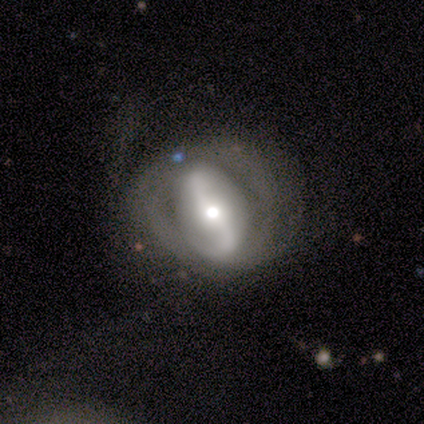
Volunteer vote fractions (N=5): A smooth galaxy with no disk features (60%) that is in between round and cigar-shaped (100%).

Vote fractions:
- Smooth or featured? smooth: 60% / featured or disk: 40% / star or artifact: 0%
- How rounded? in between: 100% / round: 0% / cigar-shaped: 0%
- Merging? none: 60% / major disturbance: 40% / minor disturbance: 0% / merger: 0%